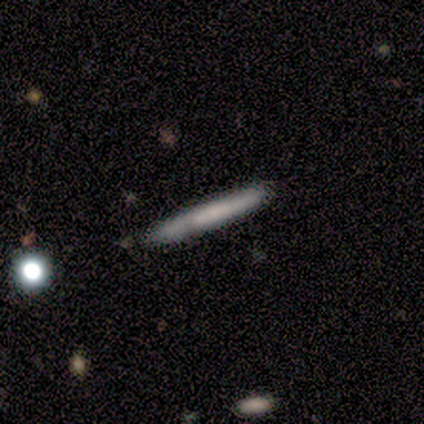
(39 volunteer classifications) smooth 67%, featured or disk 26%, star or artifact 8%. Down the decision tree: how rounded — cigar-shaped (96%); merging — none (81%).